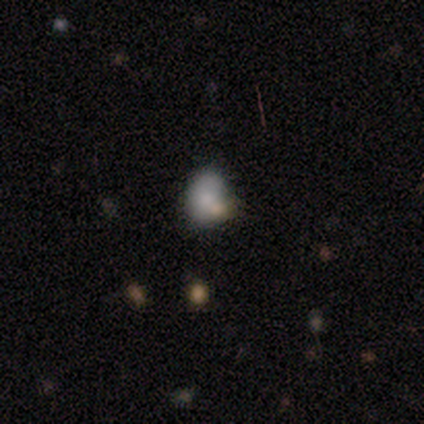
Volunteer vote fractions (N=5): smooth-or-featured: smooth: 100% | featured or disk: 0% | star or artifact: 0%
  how-rounded: in between: 80% | round: 20% | cigar-shaped: 0%
  merging: none: 40% (tied) | merger: 40% (tied) | minor disturbance: 20% | major disturbance: 0%